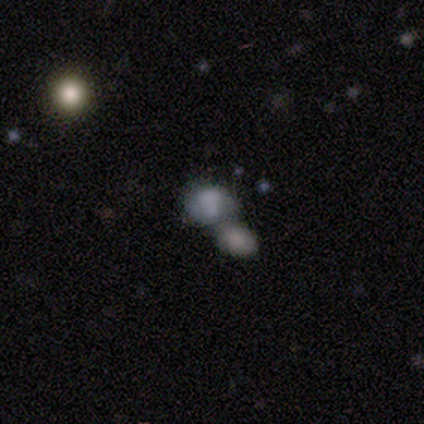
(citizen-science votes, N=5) A smooth galaxy with no disk features (80%) that is round (50%, tied with in between).

Vote fractions:
- Smooth or featured? smooth: 80% / featured or disk: 20% / star or artifact: 0%
- How rounded? round: 50% (tied) / in between: 50% (tied) / cigar-shaped: 0%
- Merging? merger: 100% / none: 0% / minor disturbance: 0% / major disturbance: 0%